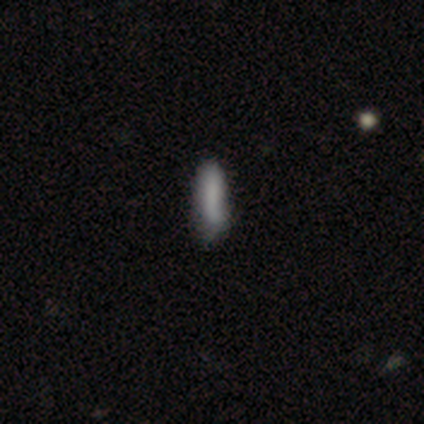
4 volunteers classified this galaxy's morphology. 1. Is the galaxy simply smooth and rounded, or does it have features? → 75% smooth, 25% star or artifact, 0% featured or disk.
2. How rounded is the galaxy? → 100% cigar-shaped, 0% round, 0% in between.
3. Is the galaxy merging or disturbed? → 67% none, 33% merger, 0% minor disturbance, 0% major disturbance.